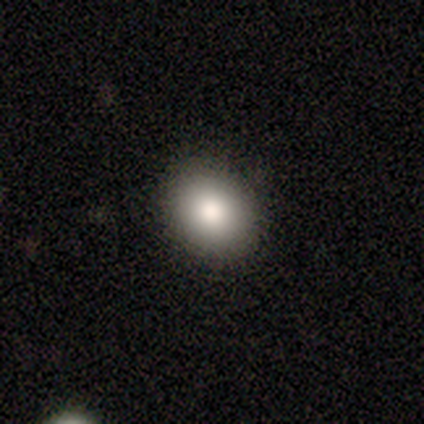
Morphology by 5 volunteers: Smooth or featured: smooth — 100%
How rounded: in between — 60% (round — 40%)
Merging: none — 100%